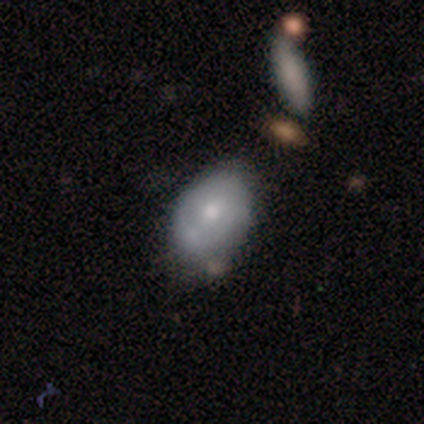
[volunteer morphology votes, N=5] A smooth galaxy with no disk features (60%) that is in between round and cigar-shaped (100%).

Vote fractions:
- Smooth or featured? smooth: 60% / featured or disk: 40% / star or artifact: 0%
- How rounded? in between: 100% / round: 0% / cigar-shaped: 0%
- Merging? none: 40% / minor disturbance: 20% / major disturbance: 20% / merger: 20%